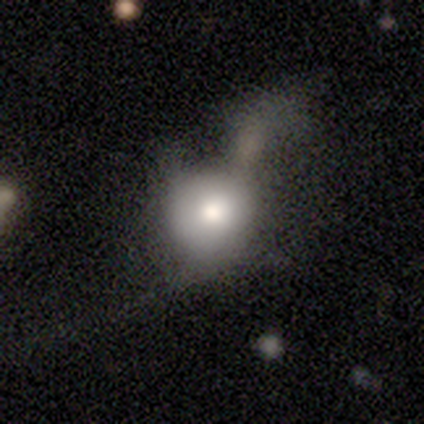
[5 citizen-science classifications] Overall: smooth (60%; featured or disk 20%). How rounded: round (67%; in between 33%). Merging: merger (50%; minor disturbance 25%).